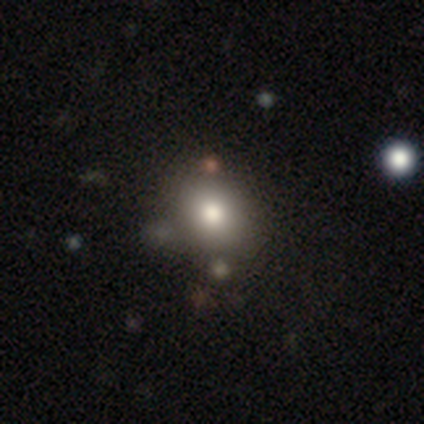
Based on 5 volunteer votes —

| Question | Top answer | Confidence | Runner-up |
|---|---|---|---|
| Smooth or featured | smooth | 100% | — |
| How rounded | round | 60% | in between (40%) |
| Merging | none | 100% | — |